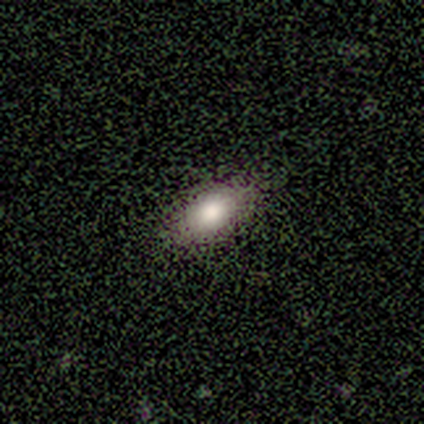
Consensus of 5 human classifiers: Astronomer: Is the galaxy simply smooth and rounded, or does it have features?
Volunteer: smooth — 60% (runner-up: featured or disk, 40%).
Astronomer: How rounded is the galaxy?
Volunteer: in between — 100%.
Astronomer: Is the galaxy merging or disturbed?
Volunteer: none — 100%.